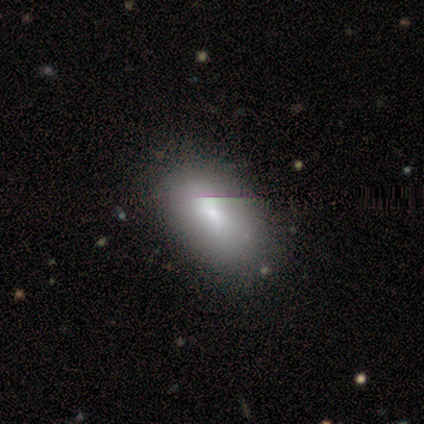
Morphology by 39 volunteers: A smooth galaxy with no disk features (74%) that is in between round and cigar-shaped (97%). Merging: none (64%).